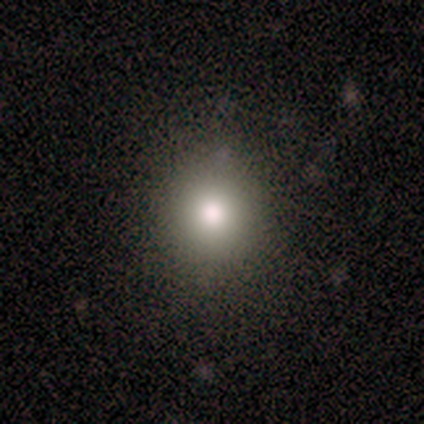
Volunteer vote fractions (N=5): Morphology: type=smooth (80%); roundness=round (100%); merging=none (100%).